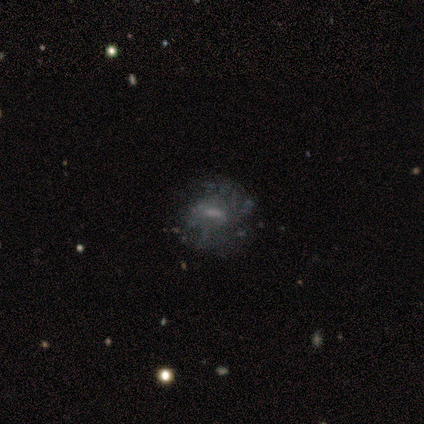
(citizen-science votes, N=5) Smooth or featured? featured or disk (60%)
Edge-on disk? no (100%)
Bar? no (67%)
Spiral arms? no (67%)
Bulge size? small (67%)
Merging? none (80%)